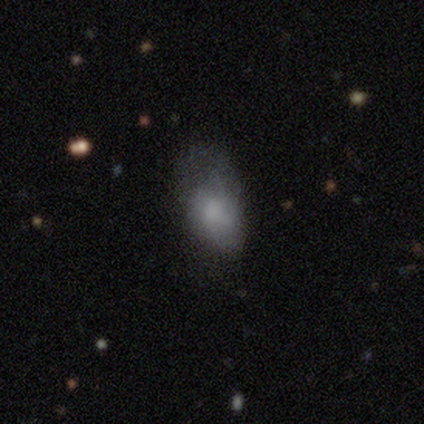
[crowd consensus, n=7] Smooth or featured? smooth (86%)
How rounded? in between (83%)
Merging? major disturbance (57%)